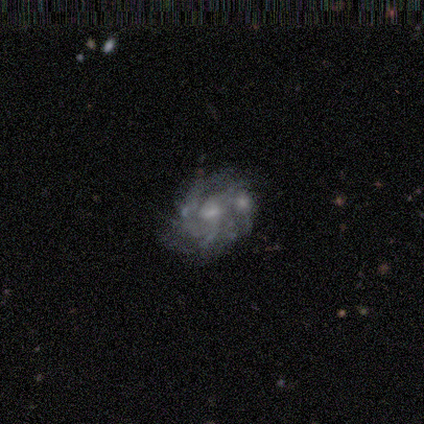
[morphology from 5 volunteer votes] Smooth or featured? featured or disk (80%)
Edge-on disk? no (100%)
Bar? no (100%)
Spiral arms? yes (100%)
Spiral winding? tight (75%)
Spiral arm count? can't tell (50%)
Bulge size? moderate (50%, tied with small)
Merging? none (60%)